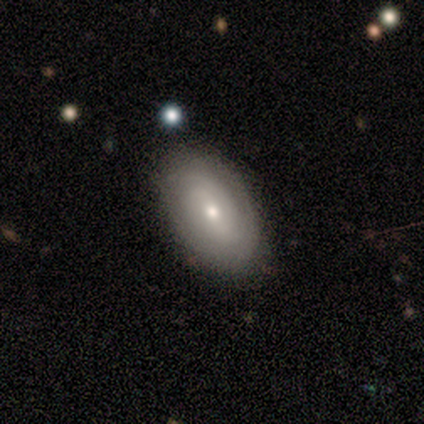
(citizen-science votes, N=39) This is possibly a featured or disk galaxy (54%). It is clearly not viewed edge-on (90%). Bar: possibly no (58%). Spiral arm pattern: clearly yes (84%). Spiral arm count: possibly can't tell (56%). Spiral winding: likely tight (75%). Central bulge: possibly moderate (47%, tied with small). Merging: clearly none (85%).